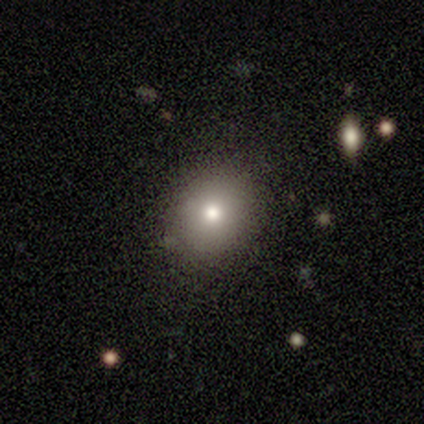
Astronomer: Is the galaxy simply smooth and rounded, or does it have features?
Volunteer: smooth — 100%.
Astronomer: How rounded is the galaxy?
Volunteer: round — 80%.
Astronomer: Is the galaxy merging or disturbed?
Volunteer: none — 100%.